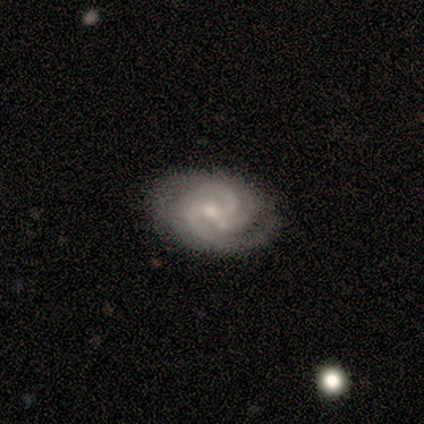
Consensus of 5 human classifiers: Q: Smooth or featured?
A: featured or disk (80%); runner-up: star or artifact (20%)
Q: Edge-on disk?
A: no (100%)
Q: Bar?
A: weak (50%); runner-up: strong (25%)
Q: Spiral arms?
A: yes (100%)
Q: Spiral winding?
A: tight (50%); tied with: medium (50%)
Q: Spiral arm count?
A: 2 (50%); runner-up: 3 (25%)
Q: Bulge size?
A: small (100%)
Q: Merging?
A: none (100%)